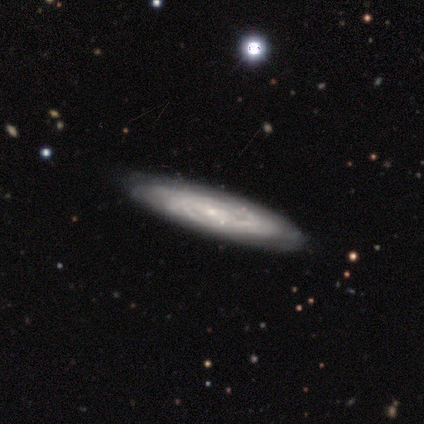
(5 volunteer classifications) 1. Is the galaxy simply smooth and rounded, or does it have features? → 80% featured or disk, 20% smooth, 0% star or artifact.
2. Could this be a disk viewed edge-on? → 75% no, 25% yes.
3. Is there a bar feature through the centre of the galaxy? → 100% no, 0% strong, 0% weak.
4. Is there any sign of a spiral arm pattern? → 100% yes, 0% no.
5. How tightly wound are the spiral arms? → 100% tight, 0% medium, 0% loose.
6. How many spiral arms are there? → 100% can't tell, 0% 1, 0% 2, 0% 3, 0% 4, 0% more than 4.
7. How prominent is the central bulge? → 100% small, 0% dominant, 0% large, 0% moderate, 0% none.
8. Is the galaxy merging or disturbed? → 100% none, 0% minor disturbance, 0% major disturbance, 0% merger.